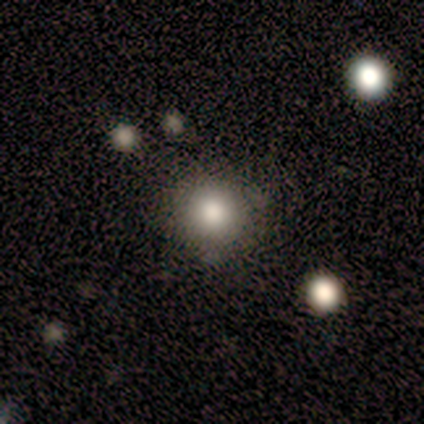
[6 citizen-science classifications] Q: Smooth or featured?
A: smooth (67%); runner-up: featured or disk (33%)
Q: How rounded?
A: round (100%)
Q: Merging?
A: none (100%)